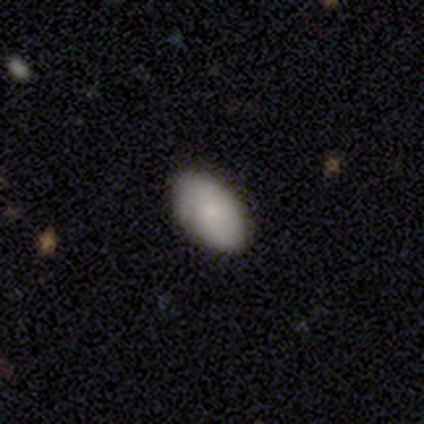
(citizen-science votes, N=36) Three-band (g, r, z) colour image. It shows a smooth galaxy with no disk features (83%) that is in between round and cigar-shaped (100%). Merging: none (100%).